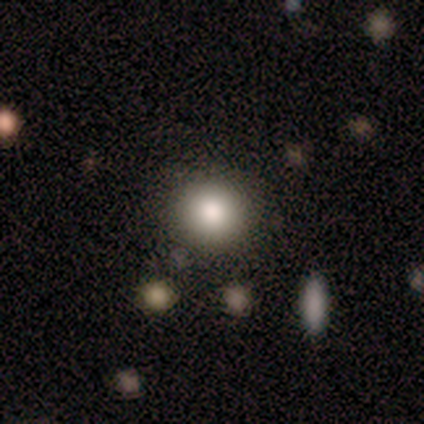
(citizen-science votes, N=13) Morphology: type=smooth (100%); roundness=round (92%); merging=none (69%).